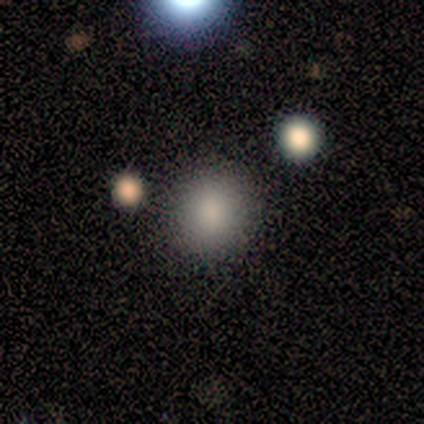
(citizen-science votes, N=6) smooth_or_featured: smooth (p=0.83) [alt: star or artifact p=0.17]
how_rounded: round (p=1.00)
merging: none (p=1.00)